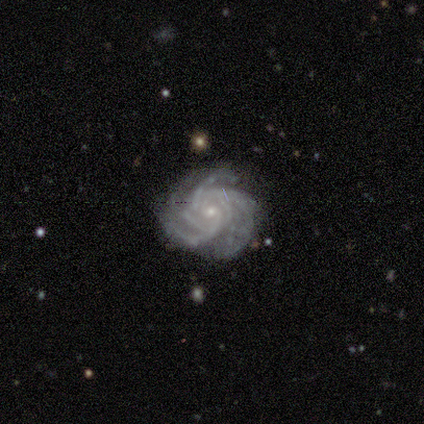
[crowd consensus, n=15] Smooth or featured? 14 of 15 (93%) said featured or disk. Edge-on disk? 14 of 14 (100%) said no. Bar? 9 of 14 (64%) said no. Spiral arms? 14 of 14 (100%) said yes. Spiral winding? 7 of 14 (50%) said medium. Spiral arm count? 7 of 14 (50%) said 3. Bulge size? 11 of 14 (79%) said small. Merging? 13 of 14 (93%) said none.